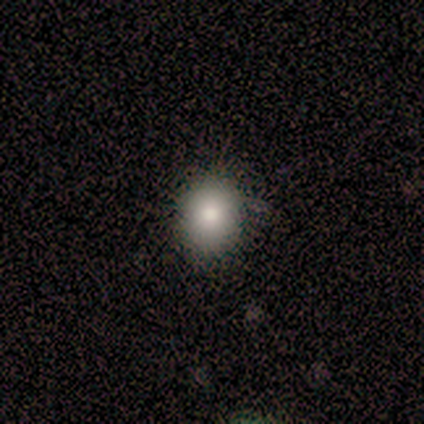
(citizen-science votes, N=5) Volunteers were most divided on "how rounded" (2-way tie): round: 50%, in between: 50%, cigar-shaped: 0%. More confident: merging — none (100%); smooth or featured — smooth (80%).